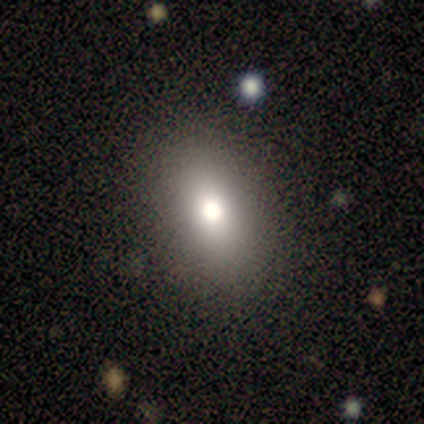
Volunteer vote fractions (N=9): This is possibly a star or artifact rather than a galaxy (56%).